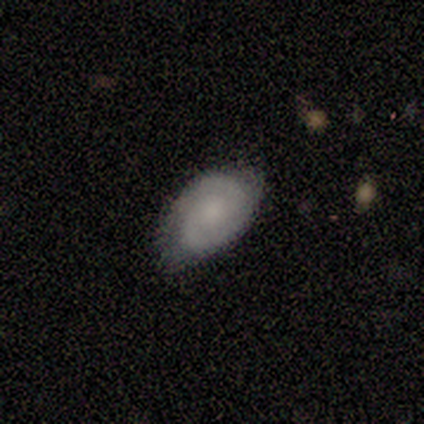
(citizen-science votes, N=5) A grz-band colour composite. It shows a featured or disk galaxy (80%) with no bar (100%), 2 (100%) medium (75%) spiral arms (100%) and no central bulge (75%). Merging: none (100%).